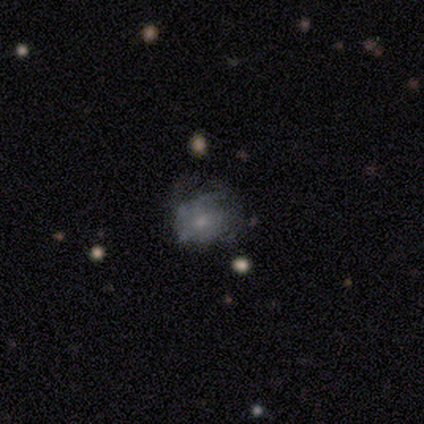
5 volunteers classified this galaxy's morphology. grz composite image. It shows a smooth galaxy with no disk features (40%, tied with featured or disk) that is round (50%, tied with in between). Merging: minor disturbance (50%).